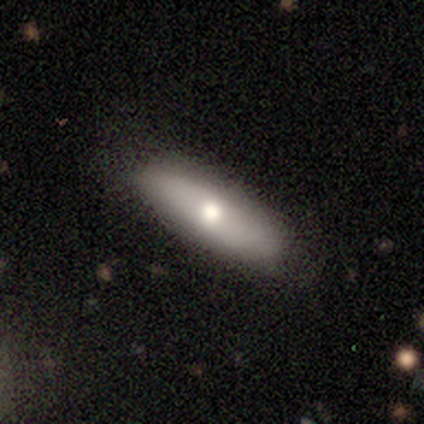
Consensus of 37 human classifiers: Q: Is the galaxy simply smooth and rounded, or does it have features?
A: featured or disk — 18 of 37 (49%).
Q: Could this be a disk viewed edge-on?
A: yes — 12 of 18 (67%).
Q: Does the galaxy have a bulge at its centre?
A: rounded — 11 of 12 (92%).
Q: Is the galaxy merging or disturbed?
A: none — 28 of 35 (80%).